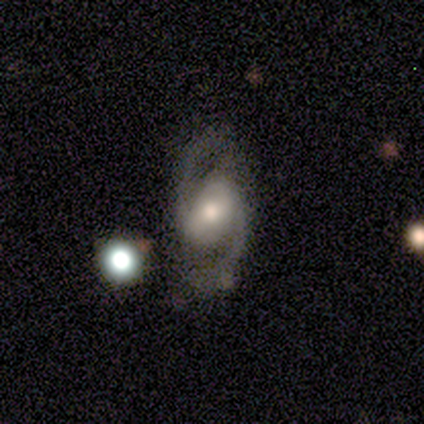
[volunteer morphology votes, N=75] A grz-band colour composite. It shows a featured or disk galaxy (91%) with a weak bar (47%), 2 (100%) medium (66%) spiral arms (97%) and a moderate central bulge (61%). Merging: none (66%).